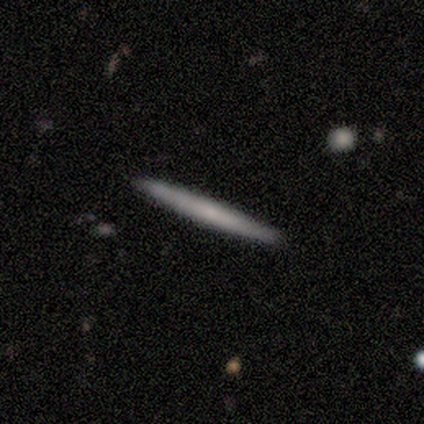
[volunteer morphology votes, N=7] Volunteers were most divided on "smooth or featured": featured or disk: 57%, smooth: 43%, star or artifact: 0%. More confident: edge-on disk — yes (100%); merging — none (100%); edge-on bulge — rounded (75%).